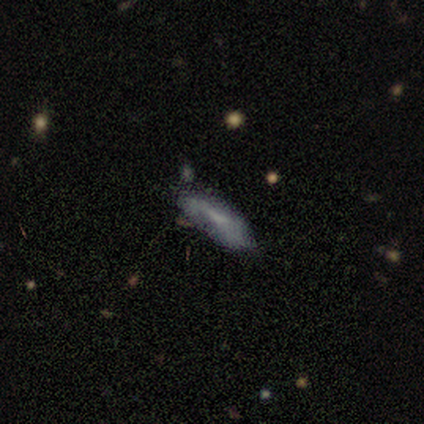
A smooth galaxy with no disk features (60%) that is in between round and cigar-shaped (67%).

Vote fractions:
- Smooth or featured? smooth: 60% / featured or disk: 20% / star or artifact: 20%
- How rounded? in between: 67% / cigar-shaped: 33% / round: 0%
- Merging? none: 100% / minor disturbance: 0% / major disturbance: 0% / merger: 0%